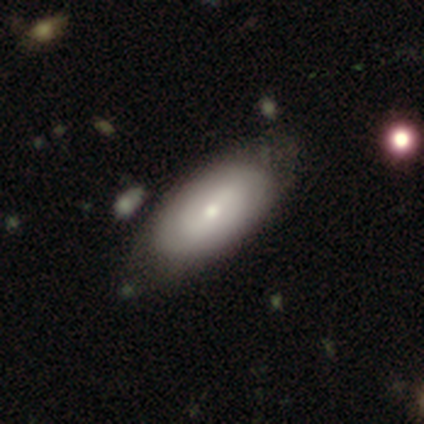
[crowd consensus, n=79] Smooth or featured?
  - smooth: 56% *
  - featured or disk: 42%
  - star or artifact: 3%
How rounded?
  - in between: 95% *
  - round: 2%
  - cigar-shaped: 2%
Merging?
  - none: 35% *
  - minor disturbance: 14%
  - merger: 6%
  - major disturbance: 0%